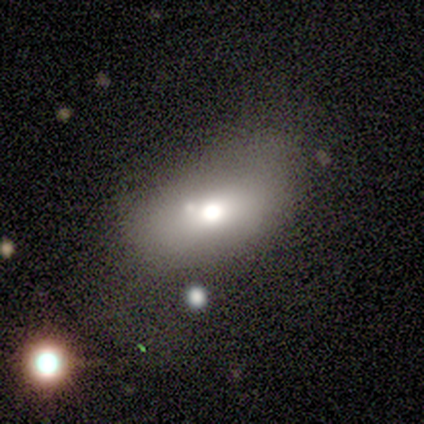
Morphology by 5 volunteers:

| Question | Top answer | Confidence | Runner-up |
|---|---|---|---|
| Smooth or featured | smooth | 80% | star or artifact (20%) |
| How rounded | in between | 75% | round (25%) |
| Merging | merger | 50% | none (25%) |